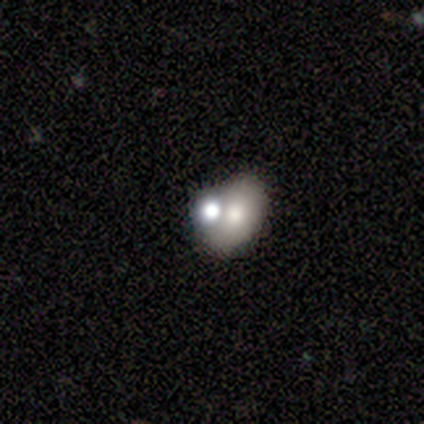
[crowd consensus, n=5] Smooth or featured?
  - smooth: 80% *
  - featured or disk: 20%
  - star or artifact: 0%
How rounded?
  - in between: 75% *
  - round: 25%
  - cigar-shaped: 0%
Merging?
  - none: 60% *
  - minor disturbance: 20%
  - merger: 20%
  - major disturbance: 0%